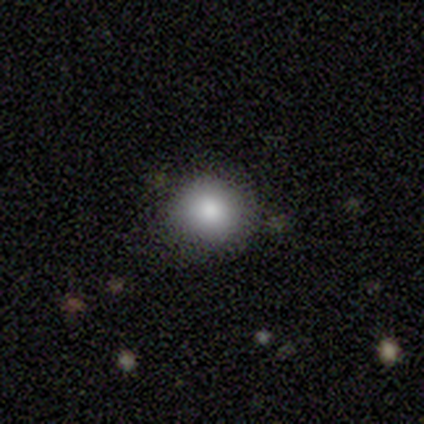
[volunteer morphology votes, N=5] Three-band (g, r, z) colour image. It shows a smooth galaxy with no disk features (100%) that is round (80%). Merging: none (80%).